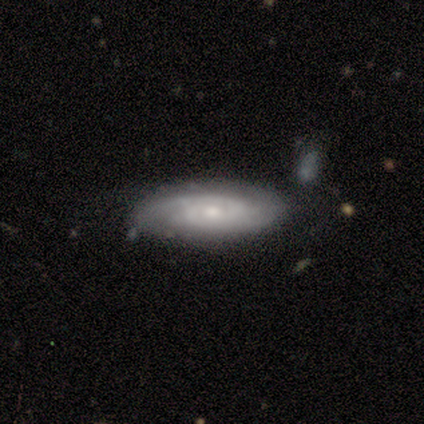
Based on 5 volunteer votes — Smooth or featured? featured or disk (60%)
Edge-on disk? yes (67%)
Edge-on bulge? rounded (100%)
Merging? none (80%)